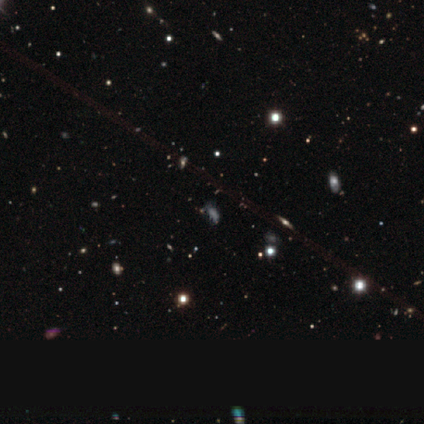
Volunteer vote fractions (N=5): A smooth galaxy with no disk features (60%) that is in between round and cigar-shaped (100%). Merging: major disturbance (50%).